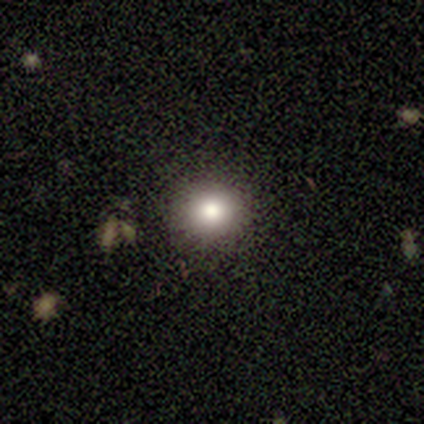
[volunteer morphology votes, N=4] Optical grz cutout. It shows a smooth galaxy with no disk features (100%) that is round (100%). Merging: none (50%, tied with minor disturbance).